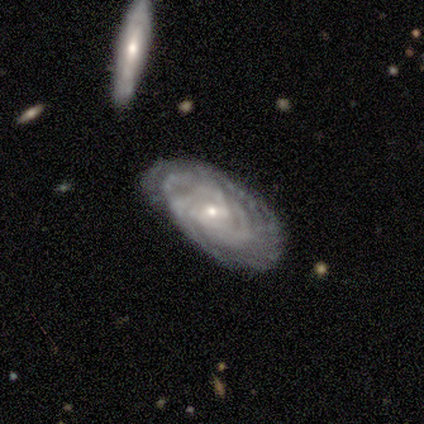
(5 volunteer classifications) smooth_or_featured: featured or disk (p=1.00)
disk_edge_on: no (p=1.00)
bar: no (p=0.60) [alt: weak p=0.40]
has_spiral_arms: yes (p=1.00)
spiral_winding: tight (p=0.60) [alt: medium p=0.40]
spiral_arm_count: 3 (p=0.40) [tied with: can't tell p=0.40]
bulge_size: small (p=1.00)
merging: none (p=0.80) [alt: minor disturbance p=0.20]